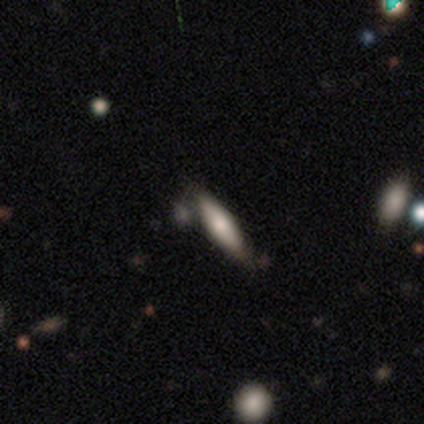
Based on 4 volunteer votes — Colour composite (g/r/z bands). It shows a smooth galaxy with no disk features (75%) that is cigar-shaped (100%). Merging: none (50%).